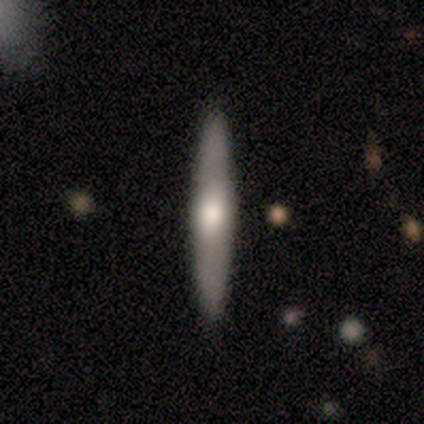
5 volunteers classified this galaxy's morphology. Smooth or featured: featured or disk — 80% (smooth — 20%)
Edge-on disk: yes — 100%
Edge-on bulge: rounded — 100%
Merging: none — 60% (minor disturbance — 40%)